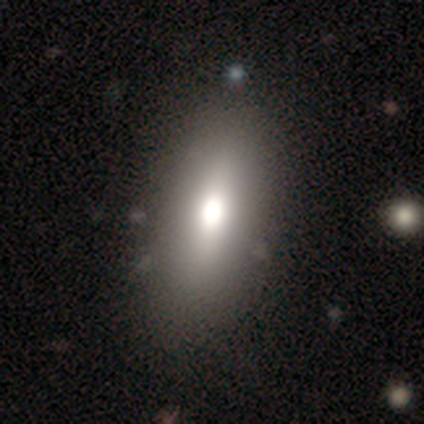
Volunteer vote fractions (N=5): Smooth or featured?
  - smooth: 60% *
  - featured or disk: 40%
  - star or artifact: 0%
How rounded?
  - in between: 100% *
  - round: 0%
  - cigar-shaped: 0%
Merging?
  - none: 100% *
  - minor disturbance: 0%
  - major disturbance: 0%
  - merger: 0%